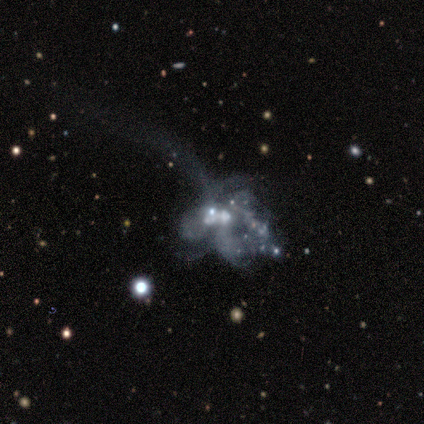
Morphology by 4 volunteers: Overall: featured or disk (100%). Edge-on disk: no (75%). Bar: no (100%). Spiral arms: no (67%; yes 33%). Bulge size: dominant (33%, tied with moderate and none). Merging: merger (75%).